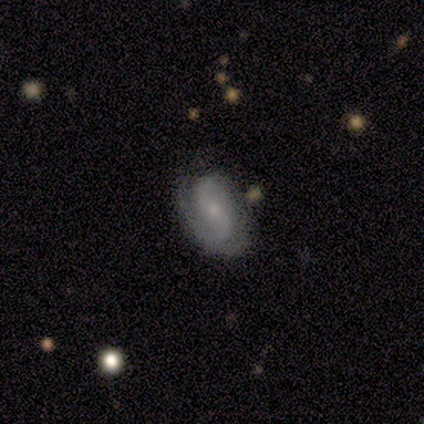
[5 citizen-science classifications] smooth-or-featured: featured or disk: 60% | smooth: 40% | star or artifact: 0%
  disk-edge-on: no: 100% | yes: 0%
    bar: weak: 67% | no: 33% | strong: 0%
    has-spiral-arms: yes: 67% | no: 33%
      spiral-winding: tight: 50% (tied) | medium: 50% (tied) | loose: 0%
      spiral-arm-count: 2: 100% | 1: 0% | 3: 0% | 4: 0% | more than 4: 0% | can't tell: 0%
    bulge-size: small: 100% | dominant: 0% | large: 0% | moderate: 0% | none: 0%
  merging: none: 40% (tied) | minor disturbance: 40% (tied) | merger: 20% | major disturbance: 0%